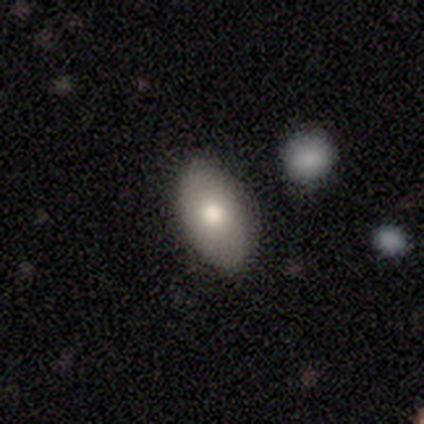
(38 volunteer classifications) smooth_or_featured: smooth (p=0.66) [alt: featured or disk p=0.18]
how_rounded: in between (p=0.96) [alt: round p=0.04]
merging: none (p=0.88) [alt: minor disturbance p=0.09]